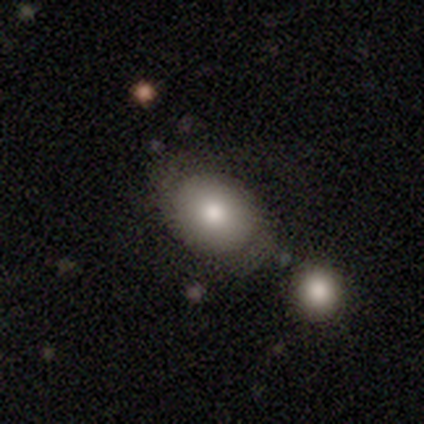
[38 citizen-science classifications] smooth_or_featured: smooth (p=0.71) [alt: featured or disk p=0.18]
how_rounded: in between (p=0.63) [alt: round p=0.37]
merging: none (p=0.59) [alt: merger p=0.21]